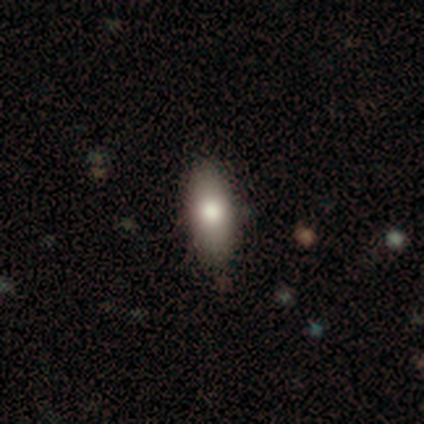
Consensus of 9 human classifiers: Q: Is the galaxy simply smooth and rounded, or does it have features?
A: smooth — 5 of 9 (56%).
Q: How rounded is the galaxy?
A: in between — 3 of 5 (60%).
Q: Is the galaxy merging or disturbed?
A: none — 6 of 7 (86%).